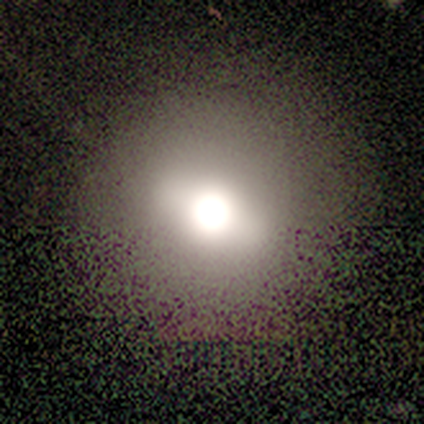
Smooth or featured? 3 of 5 (60%) said featured or disk. Edge-on disk? 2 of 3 (67%) said no. Bar? 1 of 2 (50%, tied with no) said strong. Spiral arms? 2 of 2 (100%) said no. Bulge size? 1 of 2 (50%, tied with large) said dominant. Merging? 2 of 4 (50%) said none.